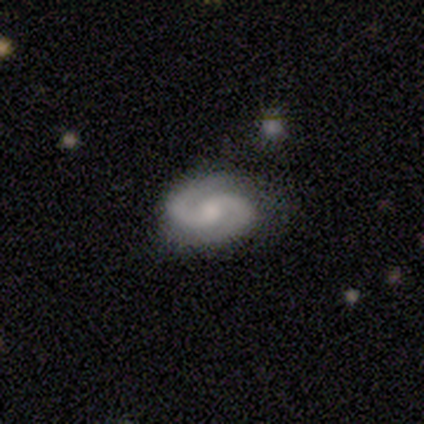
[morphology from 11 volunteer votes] smooth-or-featured: featured or disk: 82% | smooth: 18% | star or artifact: 0%
  disk-edge-on: no: 100% | yes: 0%
    bar: weak: 44% (tied) | no: 44% (tied) | strong: 11%
    has-spiral-arms: yes: 100% | no: 0%
      spiral-winding: tight: 56% | loose: 44% | medium: 0%
      spiral-arm-count: 2: 89% | can't tell: 11% | 1: 0% | 3: 0% | 4: 0% | more than 4: 0%
    bulge-size: moderate: 56% | large: 22% | small: 11% | none: 11% | dominant: 0%
  merging: none: 82% | minor disturbance: 9% | major disturbance: 9% | merger: 0%